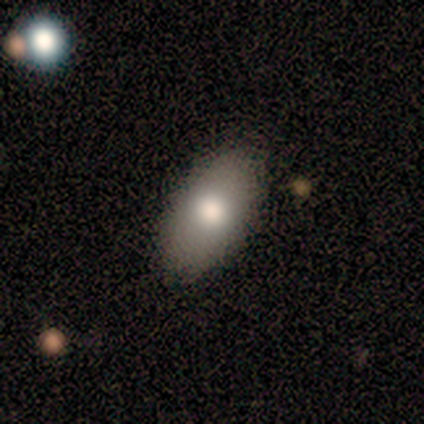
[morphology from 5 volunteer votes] Smooth or featured: smooth — 100%
How rounded: in between — 100%
Merging: none — 80% (minor disturbance — 20%)